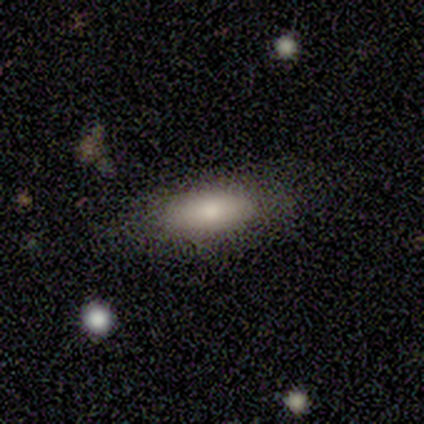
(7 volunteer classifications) A smooth galaxy with no disk features (71%) that is in between round and cigar-shaped (100%).

Vote fractions:
- Smooth or featured? smooth: 71% / featured or disk: 29% / star or artifact: 0%
- How rounded? in between: 100% / round: 0% / cigar-shaped: 0%
- Merging? none: 57% / minor disturbance: 43% / major disturbance: 0% / merger: 0%